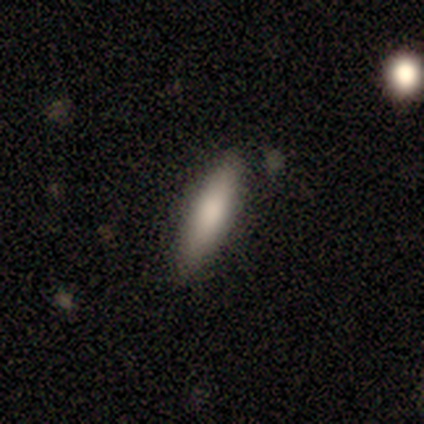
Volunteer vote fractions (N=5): Volunteers were most divided on "how rounded": cigar-shaped: 60%, in between: 40%, round: 0%. More confident: smooth or featured — smooth (100%); merging — none (100%).